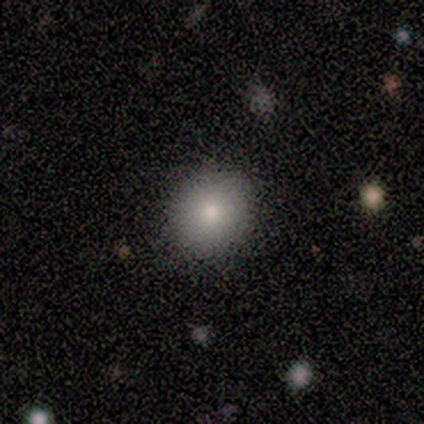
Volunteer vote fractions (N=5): A smooth galaxy with no disk features (100%) that is round (100%).

Vote fractions:
- Smooth or featured? smooth: 100% / featured or disk: 0% / star or artifact: 0%
- How rounded? round: 100% / in between: 0% / cigar-shaped: 0%
- Merging? none: 100% / minor disturbance: 0% / major disturbance: 0% / merger: 0%